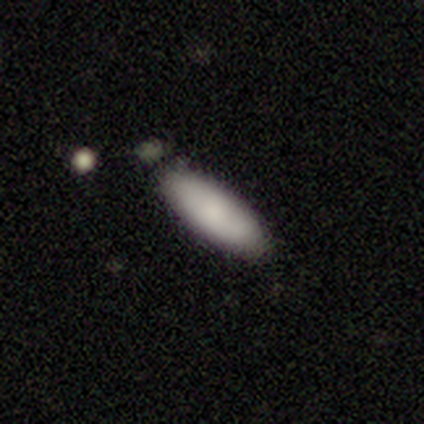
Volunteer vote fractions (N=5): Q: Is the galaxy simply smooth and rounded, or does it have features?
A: smooth — 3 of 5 (60%).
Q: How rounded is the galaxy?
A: in between — 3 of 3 (100%).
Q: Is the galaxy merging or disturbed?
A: none — 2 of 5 (40%, tied with minor disturbance).